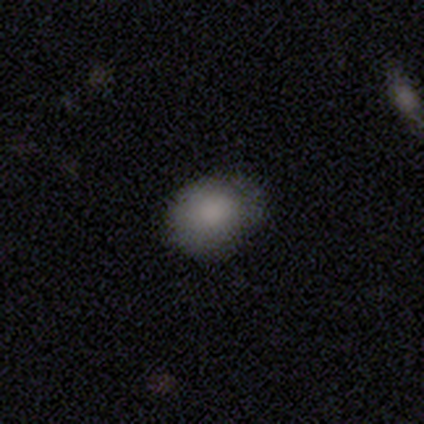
Overall: smooth (100%). How rounded: round (50%, tied with in between). Merging: none (62%; minor disturbance 38%).